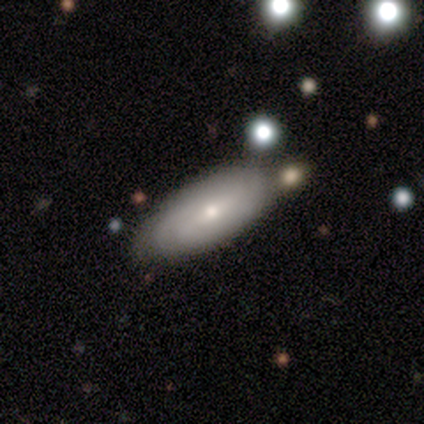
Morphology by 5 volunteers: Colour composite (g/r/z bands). It shows a featured or disk galaxy (60%) with no bar (67%), 1 (33%, tied with 2 and 4) tight (100%) spiral arms (100%) and a moderate central bulge (67%). Merging: none (50%).